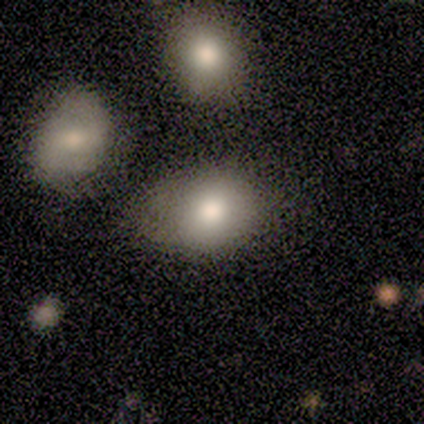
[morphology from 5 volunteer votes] A smooth galaxy with no disk features (80%) that is in between round and cigar-shaped (75%). Merging: none (60%).